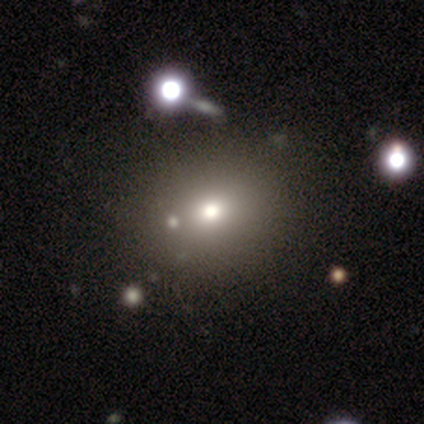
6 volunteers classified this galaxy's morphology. This appears to be a smooth galaxy with no disk features (50%) that is round (100%). Merging: none (75%).